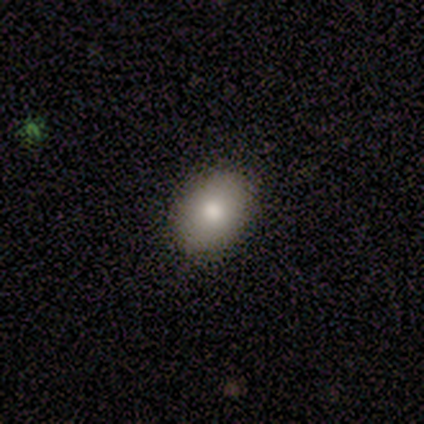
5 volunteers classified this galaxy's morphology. smooth-or-featured: smooth: 100% | featured or disk: 0% | star or artifact: 0%
  how-rounded: in between: 60% | round: 40% | cigar-shaped: 0%
  merging: none: 100% | minor disturbance: 0% | major disturbance: 0% | merger: 0%